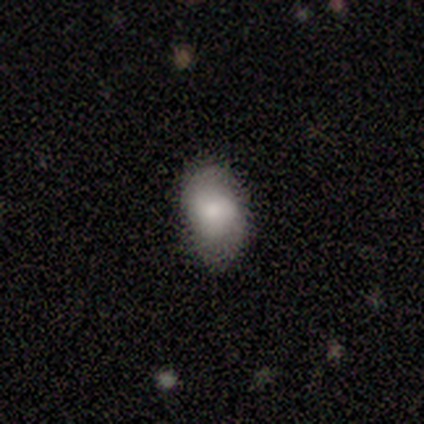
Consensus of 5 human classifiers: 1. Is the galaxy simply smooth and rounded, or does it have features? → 60% smooth, 20% featured or disk, 20% star or artifact.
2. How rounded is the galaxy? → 100% in between, 0% round, 0% cigar-shaped.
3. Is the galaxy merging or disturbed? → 100% none, 0% minor disturbance, 0% major disturbance, 0% merger.